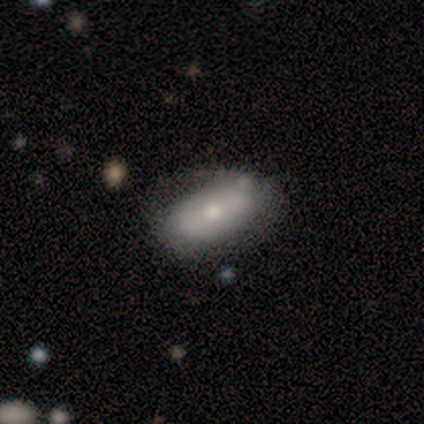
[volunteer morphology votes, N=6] Smooth or featured?
  - smooth: 50% * (tied)
  - featured or disk: 50% * (tied)
  - star or artifact: 0%
How rounded?
  - in between: 100% *
  - round: 0%
  - cigar-shaped: 0%
Merging?
  - none: 67% *
  - minor disturbance: 33%
  - major disturbance: 0%
  - merger: 0%